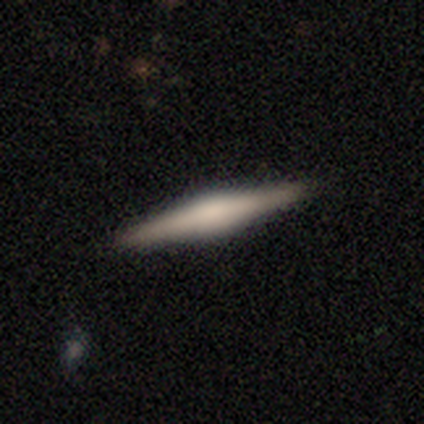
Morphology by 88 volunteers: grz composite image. It shows a featured or disk galaxy (66%) viewed edge-on (100%) with a rounded central bulge (74%). Merging: none (94%).